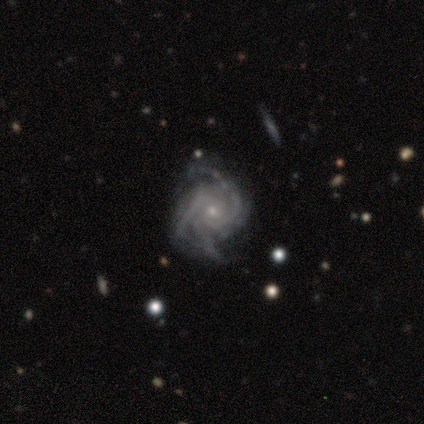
featured or disk 86%, smooth 14%, star or artifact 0%. Down the decision tree: edge-on disk — no (100%); bar — no (67%); spiral arms — yes (100%); spiral arm count — 4 (50%); spiral winding — tight (83%); bulge size — small (67%); merging — none (57%).